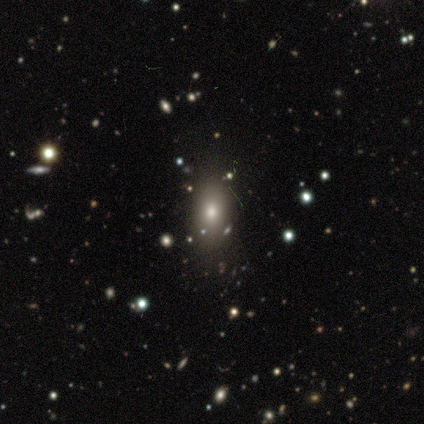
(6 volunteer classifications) smooth_or_featured: smooth (p=0.67) [alt: star or artifact p=0.33]
how_rounded: in between (p=0.75) [alt: round p=0.25]
merging: none (p=0.75) [alt: minor disturbance p=0.25]